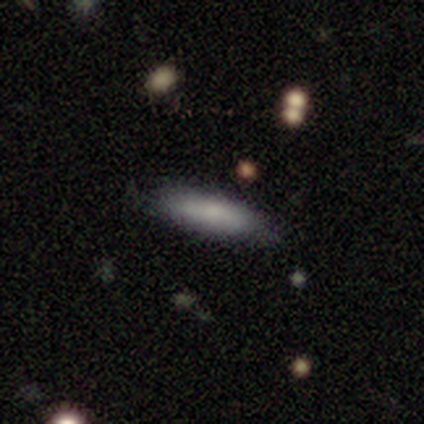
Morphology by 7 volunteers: This is clearly a smooth galaxy (86%). How rounded: likely in between (67%). Merging: likely none (71%).